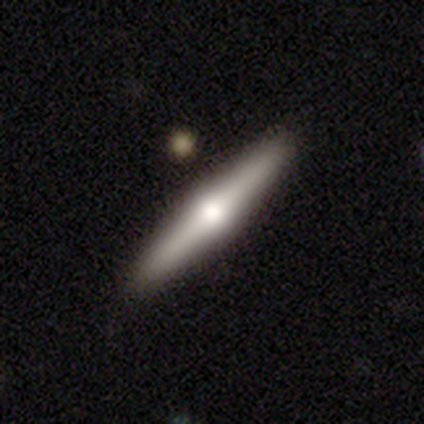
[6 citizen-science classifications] Smooth or featured?
  - featured or disk: 100% *
  - smooth: 0%
  - star or artifact: 0%
Edge-on disk?
  - yes: 100% *
  - no: 0%
Edge-on bulge?
  - rounded: 100% *
  - boxy: 0%
  - none: 0%
Merging?
  - none: 83% *
  - minor disturbance: 17%
  - major disturbance: 0%
  - merger: 0%